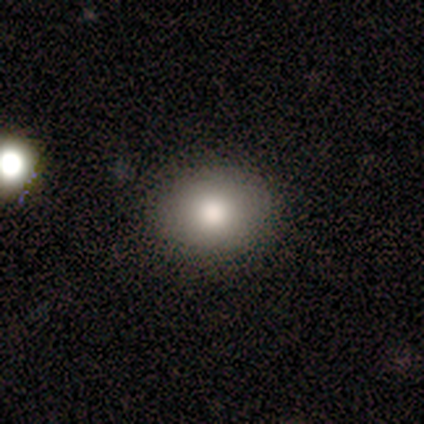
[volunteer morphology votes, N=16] Smooth or featured?
  - smooth: 69% *
  - featured or disk: 25%
  - star or artifact: 6%
How rounded?
  - round: 55% *
  - in between: 45%
  - cigar-shaped: 0%
Merging?
  - none: 100% *
  - minor disturbance: 0%
  - major disturbance: 0%
  - merger: 0%